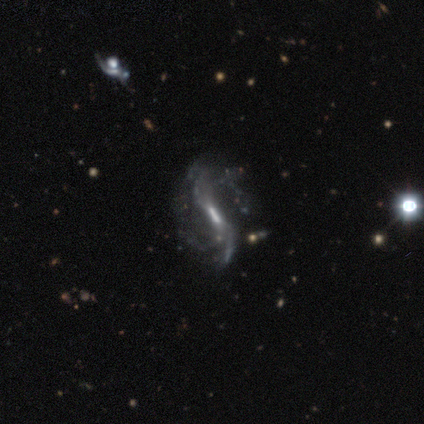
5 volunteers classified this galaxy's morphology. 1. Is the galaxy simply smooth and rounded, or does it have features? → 100% featured or disk, 0% smooth, 0% star or artifact.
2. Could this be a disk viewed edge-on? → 80% no, 20% yes.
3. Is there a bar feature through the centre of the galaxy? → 50% weak, 25% strong, 25% no.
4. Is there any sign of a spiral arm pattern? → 100% yes, 0% no.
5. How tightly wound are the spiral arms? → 50% medium (tied), 50% loose (tied), 0% tight.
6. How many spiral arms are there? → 25% 1 (tied), 25% 2 (tied), 25% 3 (tied), 25% 4 (tied), 0% more than 4, 0% can't tell.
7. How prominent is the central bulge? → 50% none, 25% moderate, 25% small, 0% dominant, 0% large.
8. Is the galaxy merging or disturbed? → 40% minor disturbance (tied), 40% major disturbance (tied), 20% merger, 0% none.